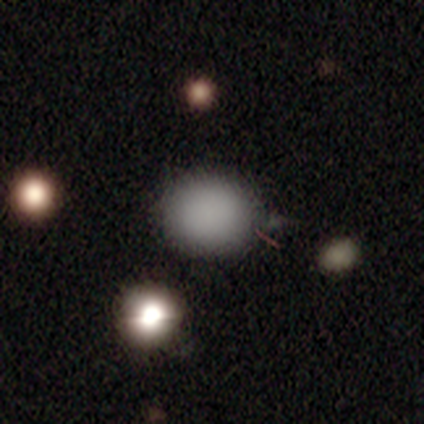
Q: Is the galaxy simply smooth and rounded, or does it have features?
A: smooth — 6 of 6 (100%).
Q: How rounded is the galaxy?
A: round — 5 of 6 (83%).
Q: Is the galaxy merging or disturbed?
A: none — 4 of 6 (67%).